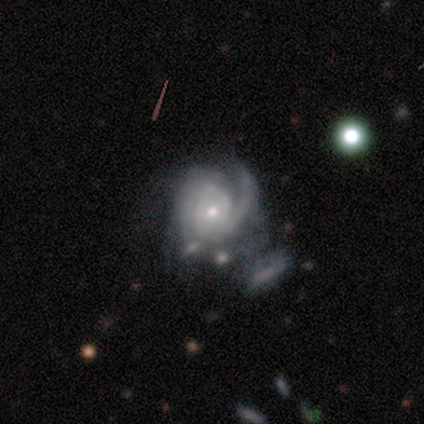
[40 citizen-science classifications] Overall: featured or disk (98%). Edge-on disk: no (97%). Bar: no (92%). Spiral arms: yes (100%). Spiral arm count: 2 (32%; can't tell 26%). Spiral winding: tight (61%; medium 39%). Bulge size: small (58%; moderate 39%). Merging: merger (21%; major disturbance 18%).